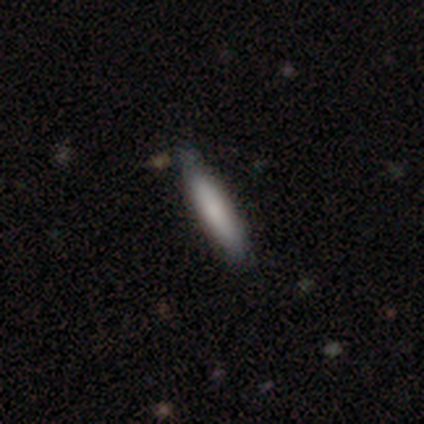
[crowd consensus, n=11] smooth-or-featured: smooth: 55% | featured or disk: 36% | star or artifact: 9%
  how-rounded: cigar-shaped: 100% | round: 0% | in between: 0%
  merging: none: 70% | minor disturbance: 30% | major disturbance: 0% | merger: 0%